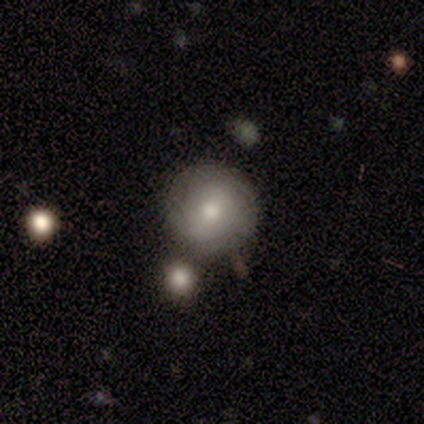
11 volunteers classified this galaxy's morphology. type=smooth (82%); roundness=round (100%); merging=none (64%).